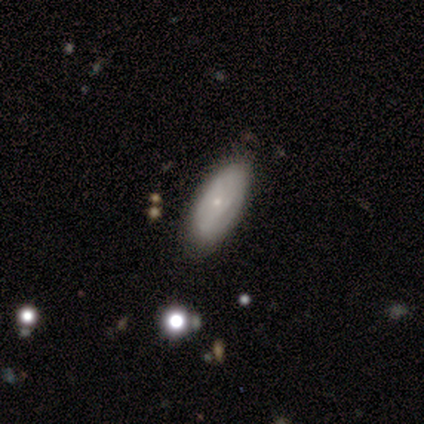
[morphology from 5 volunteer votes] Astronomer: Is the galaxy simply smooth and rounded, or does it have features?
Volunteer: smooth — 80%.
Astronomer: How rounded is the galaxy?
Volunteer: in between — 100%.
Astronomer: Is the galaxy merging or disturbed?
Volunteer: none — 80%.